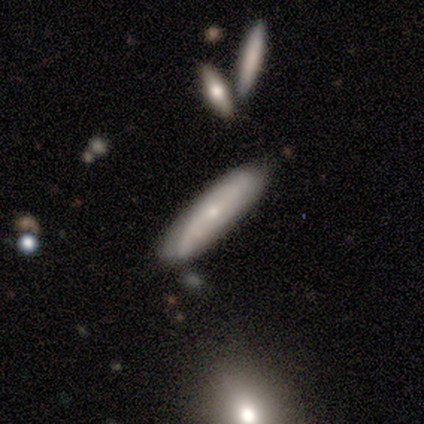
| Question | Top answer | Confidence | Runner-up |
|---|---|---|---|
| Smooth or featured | featured or disk | 75% | smooth (25%) |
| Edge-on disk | no | 67% | yes (33%) |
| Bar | no | 100% | — |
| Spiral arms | yes | 100% | — |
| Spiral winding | tight | 100% | — |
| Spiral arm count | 2 | 50% | tied: can't tell (50%) |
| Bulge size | small | 100% | — |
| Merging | none | 75% | merger (25%) |